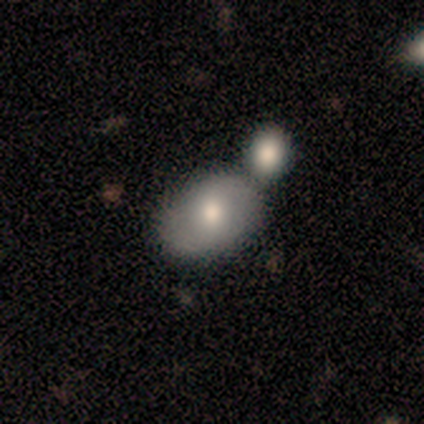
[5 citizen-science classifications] smooth_or_featured: smooth (p=0.60) [alt: featured or disk p=0.40]
how_rounded: in between (p=1.00)
merging: none (p=0.80) [alt: merger p=0.20]